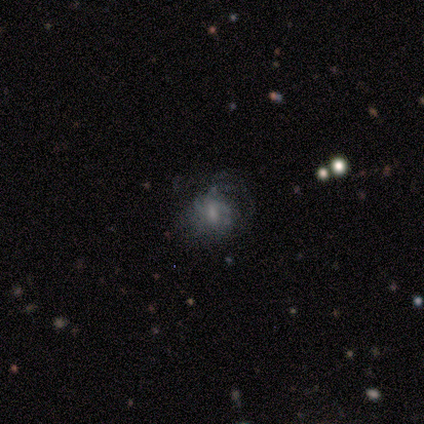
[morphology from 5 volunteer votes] Overall: featured or disk (40%, tied with star or artifact). Edge-on disk: no (100%). Bar: weak (100%). Spiral arms: yes (100%). Spiral arm count: can't tell (100%). Spiral winding: medium (50%, tied with loose). Bulge size: small (100%). Merging: major disturbance (67%; none 33%).